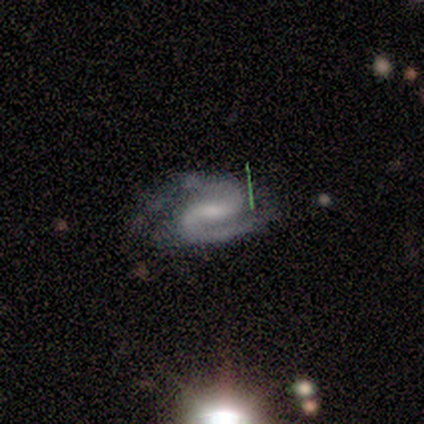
A featured or disk galaxy (84%) with a weak bar (47%), 2 (99%) medium (56%) spiral arms (100%) and a small central bulge (46%).

Vote fractions:
- Smooth or featured? featured or disk: 84% / star or artifact: 11% / smooth: 5%
- Edge-on disk? no: 97% / yes: 3%
- Bar? weak: 47% / strong: 38% / no: 15%
- Spiral arms? yes: 100% / no: 0%
- Spiral winding? medium: 56% / tight: 26% / loose: 17%
- Spiral arm count? 2: 99% / 1: 1% / 3: 0% / 4: 0% / more than 4: 0% / can't tell: 0%
- Bulge size? small: 46% / moderate: 31% / none: 17% / large: 6% / dominant: 0%
- Merging? none: 58% / minor disturbance: 32% / major disturbance: 7% / merger: 3%